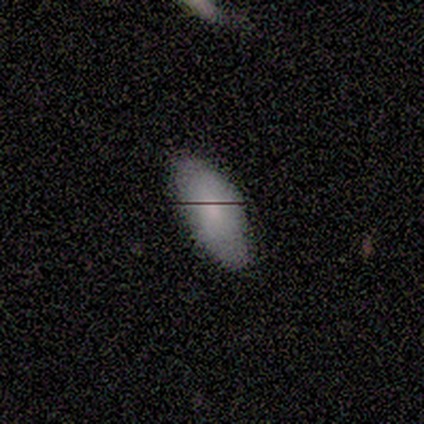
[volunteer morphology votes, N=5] Volunteers were most divided on "merging": none: 80%, major disturbance: 20%, minor disturbance: 0%, merger: 0%. More confident: smooth or featured — smooth (100%); how rounded — in between (100%).